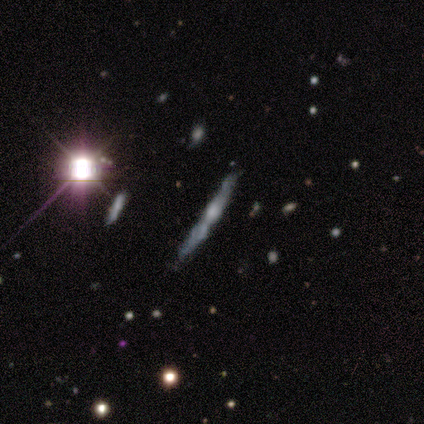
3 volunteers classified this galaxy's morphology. type=featured or disk (67%); edge-on=yes (100%); edge-on bulge=rounded (100%); merging=none (100%).